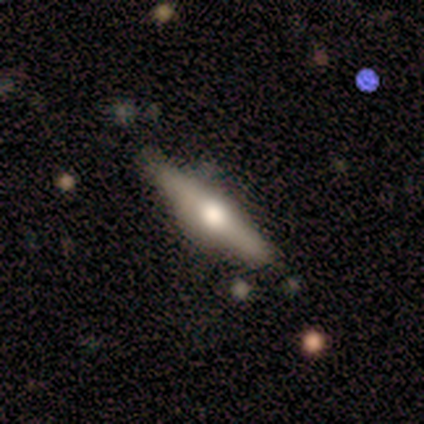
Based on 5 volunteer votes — This appears to be a featured or disk galaxy (100%) viewed edge-on (100%) with a rounded central bulge (80%). Merging: none (100%).